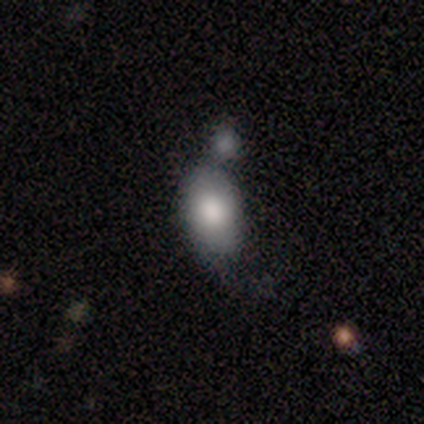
This is clearly a smooth galaxy (100%). How rounded: likely in between (60%). Merging: likely merger (60%).